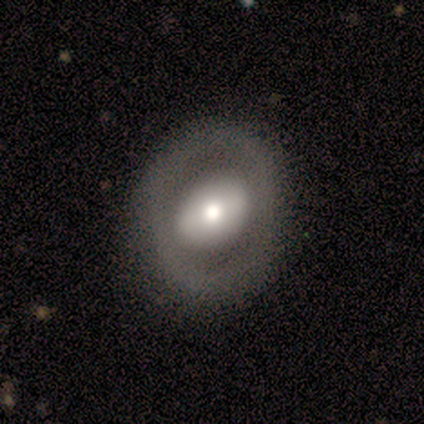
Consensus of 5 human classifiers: smooth-or-featured: featured or disk: 60% | smooth: 40% | star or artifact: 0%
  disk-edge-on: no: 100% | yes: 0%
    bar: strong: 33% (tied) | weak: 33% (tied) | no: 33% (tied)
    has-spiral-arms: no: 100% | yes: 0%
    bulge-size: moderate: 100% | dominant: 0% | large: 0% | small: 0% | none: 0%
  merging: none: 80% | minor disturbance: 20% | major disturbance: 0% | merger: 0%